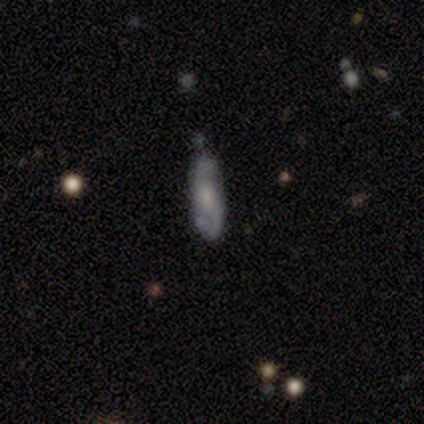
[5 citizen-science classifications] A featured or disk galaxy (80%) with no bar (50%), 2 (100%) loose (67%) spiral arms (75%) and a large central bulge (25%, tied with moderate, small and none).

Vote fractions:
- Smooth or featured? featured or disk: 80% / smooth: 20% / star or artifact: 0%
- Edge-on disk? no: 100% / yes: 0%
- Bar? no: 50% / strong: 25% / weak: 25%
- Spiral arms? yes: 75% / no: 25%
- Spiral winding? loose: 67% / medium: 33% / tight: 0%
- Spiral arm count? 2: 100% / 1: 0% / 3: 0% / 4: 0% / more than 4: 0% / can't tell: 0%
- Bulge size? large: 25% (tied) / moderate: 25% (tied) / small: 25% (tied) / none: 25% (tied) / dominant: 0%
- Merging? none: 80% / minor disturbance: 20% / major disturbance: 0% / merger: 0%